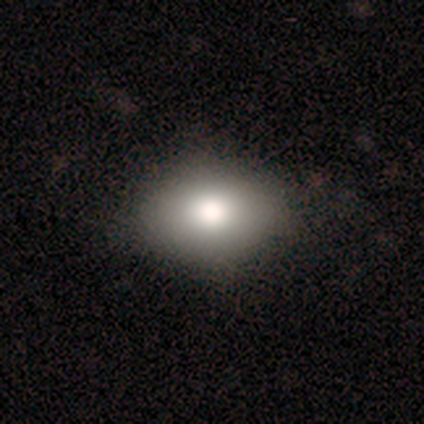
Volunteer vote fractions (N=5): Q: Smooth or featured?
A: smooth (80%); runner-up: star or artifact (20%)
Q: How rounded?
A: in between (50%); runner-up: round (25%)
Q: Merging?
A: none (100%)